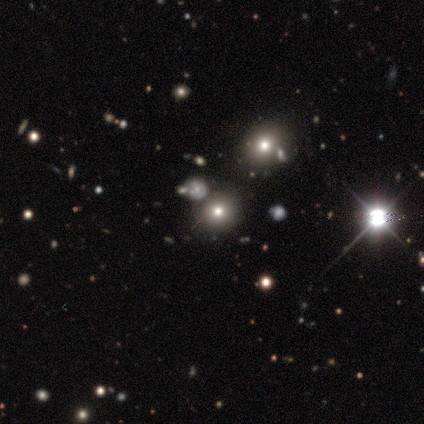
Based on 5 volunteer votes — Smooth or featured: star or artifact — 80% (smooth — 20%)